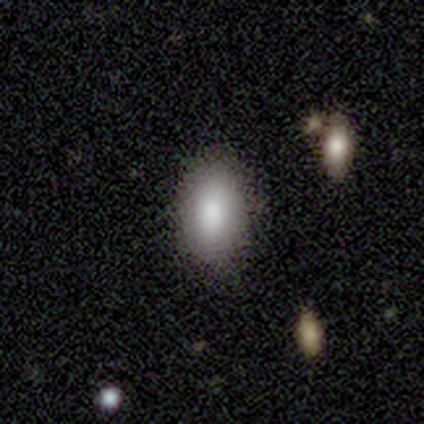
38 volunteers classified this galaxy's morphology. Smooth or featured?
  - smooth: 92% *
  - featured or disk: 8%
  - star or artifact: 0%
How rounded?
  - in between: 83% *
  - round: 11%
  - cigar-shaped: 6%
Merging?
  - none: 87% *
  - minor disturbance: 11%
  - major disturbance: 3%
  - merger: 0%